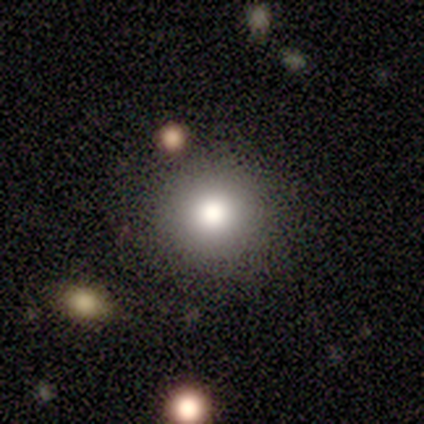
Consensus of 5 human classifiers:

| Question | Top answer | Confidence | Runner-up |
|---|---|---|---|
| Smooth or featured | smooth | 100% | — |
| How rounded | round | 100% | — |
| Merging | none | 100% | — |